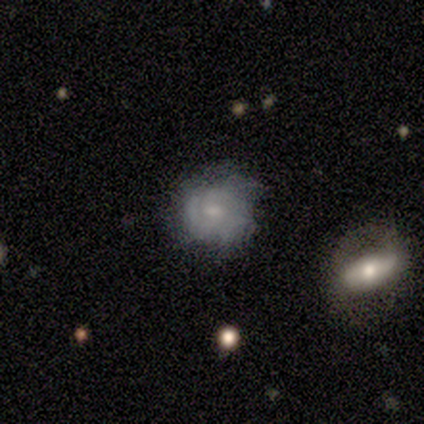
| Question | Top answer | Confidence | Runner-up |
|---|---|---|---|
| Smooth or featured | featured or disk | 80% | smooth (20%) |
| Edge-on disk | no | 100% | — |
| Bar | weak | 75% | no (25%) |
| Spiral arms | yes | 100% | — |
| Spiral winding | tight | 100% | — |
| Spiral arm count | can't tell | 75% | 3 (25%) |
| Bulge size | small | 75% | none (25%) |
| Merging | none | 60% | minor disturbance (40%) |